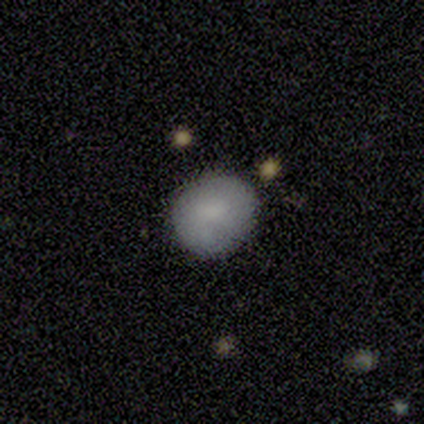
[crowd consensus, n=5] A smooth galaxy with no disk features (60%) that is round (100%).

Vote fractions:
- Smooth or featured? smooth: 60% / featured or disk: 20% / star or artifact: 20%
- How rounded? round: 100% / in between: 0% / cigar-shaped: 0%
- Merging? none: 50% (tied) / minor disturbance: 50% (tied) / major disturbance: 0% / merger: 0%